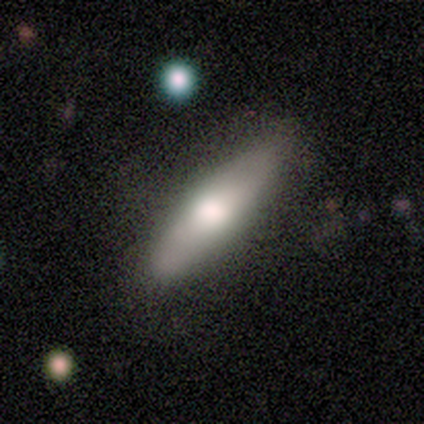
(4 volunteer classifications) Q: Smooth or featured?
A: smooth (100%)
Q: How rounded?
A: cigar-shaped (75%); runner-up: in between (25%)
Q: Merging?
A: minor disturbance (75%); runner-up: none (25%)